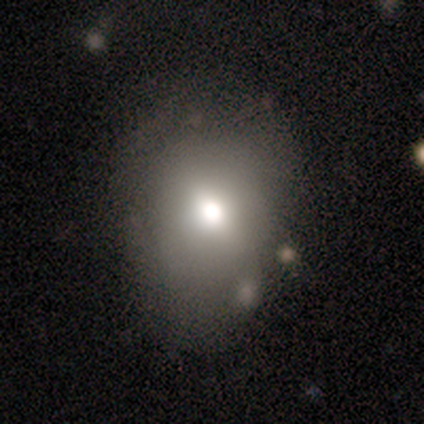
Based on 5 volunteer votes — Smooth or featured?
  - smooth: 80% *
  - featured or disk: 20%
  - star or artifact: 0%
How rounded?
  - round: 75% *
  - in between: 25%
  - cigar-shaped: 0%
Merging?
  - none: 60% *
  - minor disturbance: 20%
  - major disturbance: 20%
  - merger: 0%